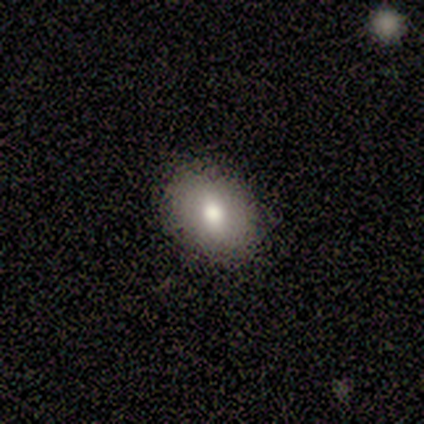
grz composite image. It shows a smooth galaxy with no disk features (85%) that is in between round and cigar-shaped (74%). Merging: none (97%).